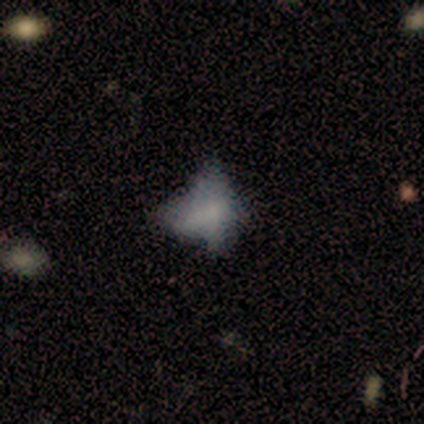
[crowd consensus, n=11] Morphology: type=smooth (45%); roundness=in between (100%); merging=none (44%, tied with major disturbance).